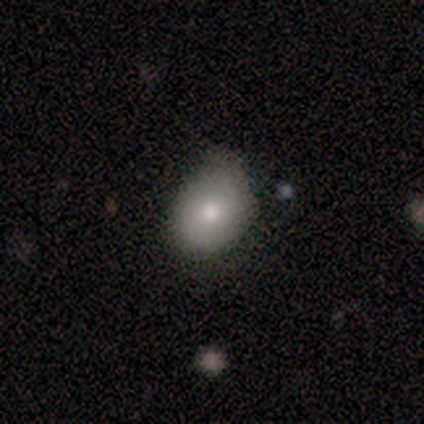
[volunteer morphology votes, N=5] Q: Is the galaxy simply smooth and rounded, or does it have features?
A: smooth — 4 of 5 (80%).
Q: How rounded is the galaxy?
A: in between — 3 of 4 (75%).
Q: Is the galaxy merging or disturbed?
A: none — 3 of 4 (75%).